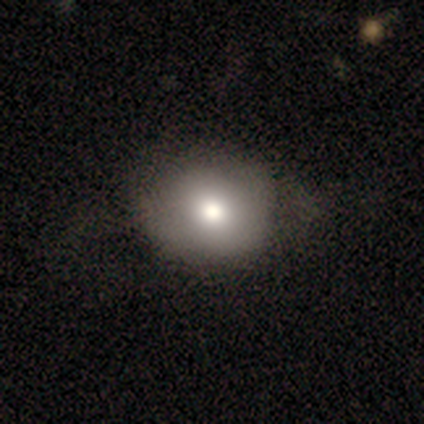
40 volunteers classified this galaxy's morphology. Smooth or featured? 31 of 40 (78%) said smooth. How rounded? 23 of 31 (74%) said round. Merging? 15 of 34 (44%) said none.